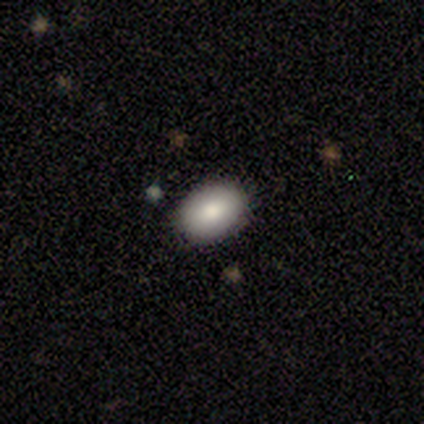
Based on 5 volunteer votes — smooth-or-featured: smooth: 60% | featured or disk: 20% | star or artifact: 20%
  how-rounded: in between: 100% | round: 0% | cigar-shaped: 0%
  merging: none: 100% | minor disturbance: 0% | major disturbance: 0% | merger: 0%